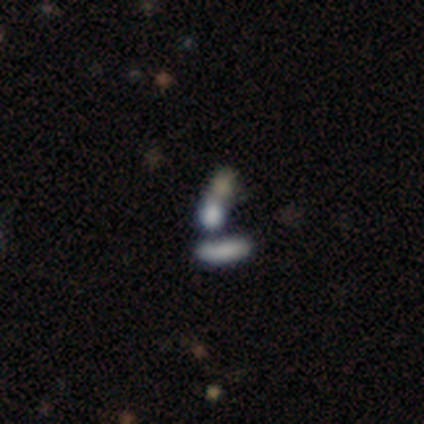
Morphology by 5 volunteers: Smooth or featured?
  - smooth: 80% *
  - featured or disk: 20%
  - star or artifact: 0%
How rounded?
  - round: 50% * (tied)
  - in between: 50% * (tied)
  - cigar-shaped: 0%
Merging?
  - none: 40% * (tied)
  - merger: 40% * (tied)
  - minor disturbance: 20%
  - major disturbance: 0%